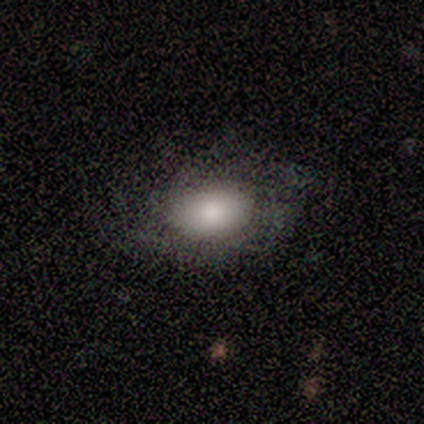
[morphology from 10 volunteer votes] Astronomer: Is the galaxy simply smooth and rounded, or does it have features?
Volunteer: smooth — 60%.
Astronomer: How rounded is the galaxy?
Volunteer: in between — 83%.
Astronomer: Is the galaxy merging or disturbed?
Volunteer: none — 44% (runner-up: minor disturbance, 33%).